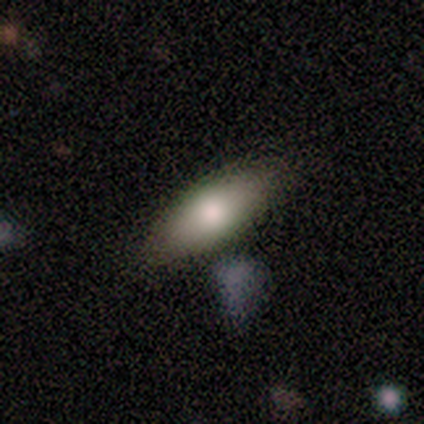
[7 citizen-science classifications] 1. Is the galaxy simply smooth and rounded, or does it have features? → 57% smooth, 43% featured or disk, 0% star or artifact.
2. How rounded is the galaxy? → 75% cigar-shaped, 25% in between, 0% round.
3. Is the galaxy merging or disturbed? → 86% none, 14% minor disturbance, 0% major disturbance, 0% merger.